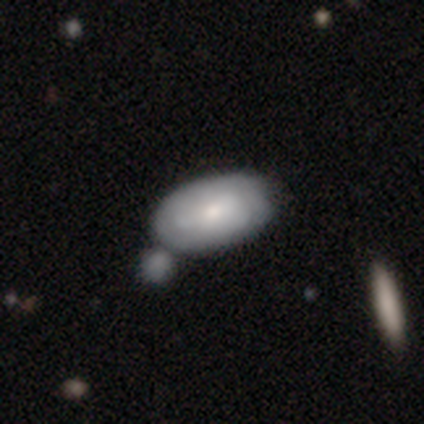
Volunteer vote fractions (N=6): Overall: smooth (50%; featured or disk 33%). How rounded: in between (100%). Merging: none (40%, tied with minor disturbance).